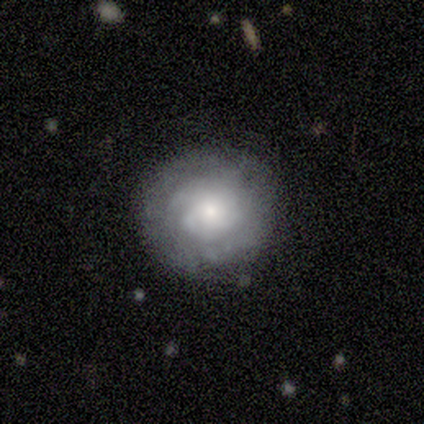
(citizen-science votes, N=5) Overall: featured or disk (80%). Edge-on disk: no (75%). Bar: no (100%). Spiral arms: no (67%; yes 33%). Bulge size: moderate (67%; large 33%). Merging: none (60%; minor disturbance 20%).